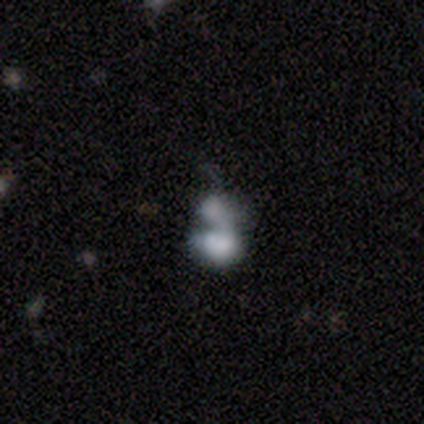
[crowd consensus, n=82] Smooth or featured: smooth — 56% (featured or disk — 37%)
How rounded: in between — 83% (round — 17%)
Merging: merger — 63% (major disturbance — 22%)